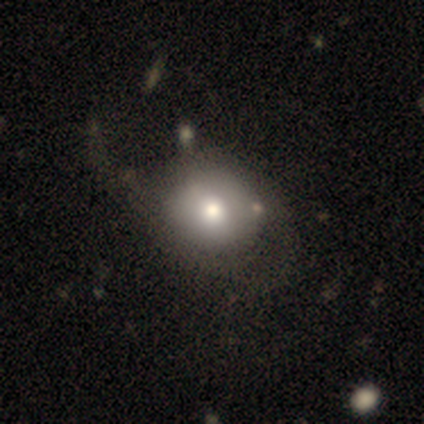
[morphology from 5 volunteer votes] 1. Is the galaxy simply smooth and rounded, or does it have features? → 60% smooth, 40% star or artifact, 0% featured or disk.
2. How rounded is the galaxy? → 100% round, 0% in between, 0% cigar-shaped.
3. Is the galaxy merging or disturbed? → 33% none (tied), 33% major disturbance (tied), 33% merger (tied), 0% minor disturbance.